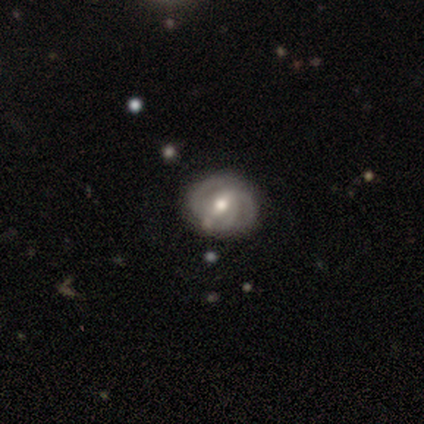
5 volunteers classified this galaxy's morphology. Smooth or featured? 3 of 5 (60%) said featured or disk. Edge-on disk? 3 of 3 (100%) said no. Bar? 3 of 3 (100%) said strong. Spiral arms? 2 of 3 (67%) said yes. Spiral winding? 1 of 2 (50%, tied with medium) said tight. Spiral arm count? 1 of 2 (50%, tied with can't tell) said 2. Bulge size? 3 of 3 (100%) said moderate. Merging? 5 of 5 (100%) said none.